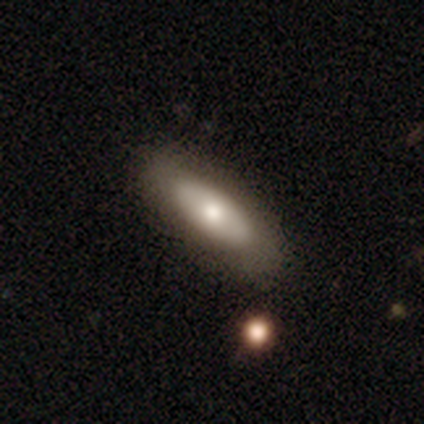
Overall: smooth (65%; featured or disk 30%). How rounded: in between (67%; cigar-shaped 33%). Merging: none (41%; minor disturbance 7%).